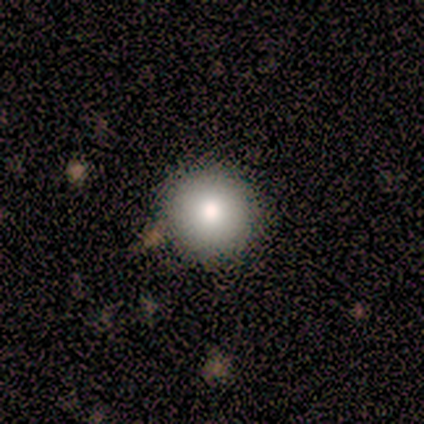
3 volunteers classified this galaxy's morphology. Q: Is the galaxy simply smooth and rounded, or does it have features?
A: smooth — 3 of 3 (100%).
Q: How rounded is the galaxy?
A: round — 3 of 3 (100%).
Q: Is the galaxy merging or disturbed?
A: none — 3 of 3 (100%).